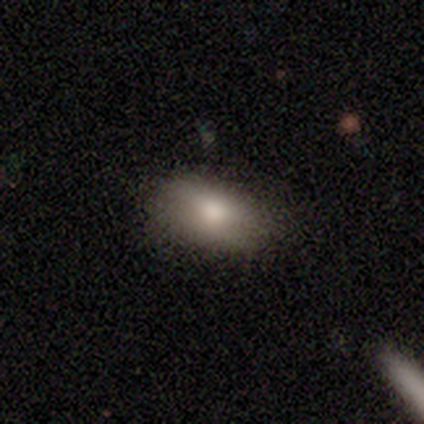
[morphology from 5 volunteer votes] Smooth or featured? 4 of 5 (80%) said smooth. How rounded? 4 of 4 (100%) said in between. Merging? 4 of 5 (80%) said none.